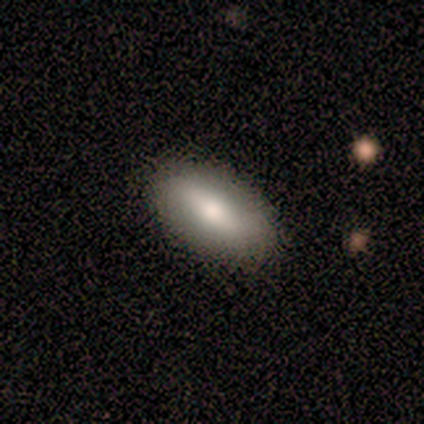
Overall: smooth (60%; featured or disk 40%). How rounded: in between (100%). Merging: none (80%).